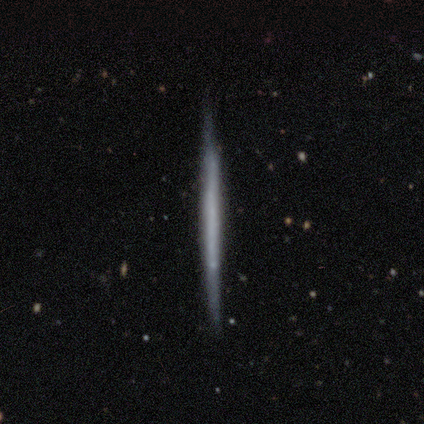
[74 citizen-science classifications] Volunteers were most divided on "smooth or featured": featured or disk: 74%, smooth: 24%, star or artifact: 1%. More confident: edge-on disk — yes (98%); edge-on bulge — none (89%); merging — none (84%).